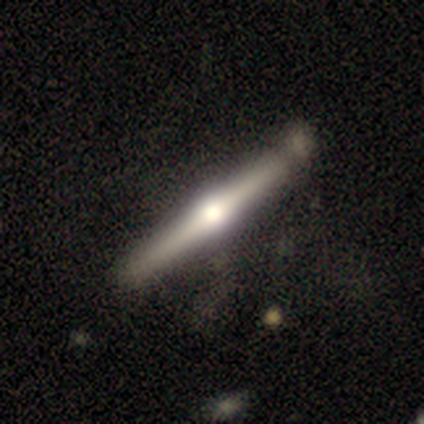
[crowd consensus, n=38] Smooth or featured: featured or disk — 89% (smooth — 5%)
Edge-on disk: yes — 97% (no — 3%)
Edge-on bulge: rounded — 97% (none — 3%)
Merging: none — 67% (minor disturbance — 17%)